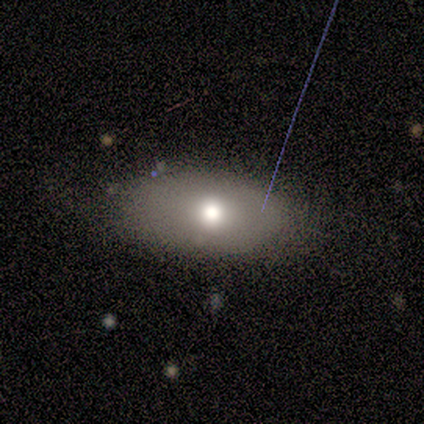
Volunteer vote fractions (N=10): A smooth galaxy with no disk features (60%) that is in between round and cigar-shaped (100%).

Vote fractions:
- Smooth or featured? smooth: 60% / featured or disk: 20% / star or artifact: 20%
- How rounded? in between: 100% / round: 0% / cigar-shaped: 0%
- Merging? none: 88% / minor disturbance: 12% / major disturbance: 0% / merger: 0%